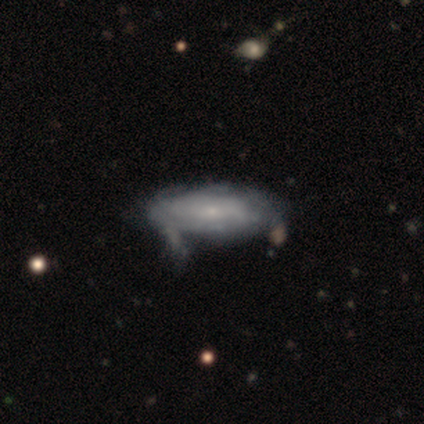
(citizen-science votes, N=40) featured or disk 78%, smooth 20%, star or artifact 2%. Down the decision tree: edge-on disk — no (84%); bar — no (85%); spiral arms — yes (77%); spiral arm count — can't tell (75%); spiral winding — tight (85%); bulge size — small (85%); merging — minor disturbance (41%).